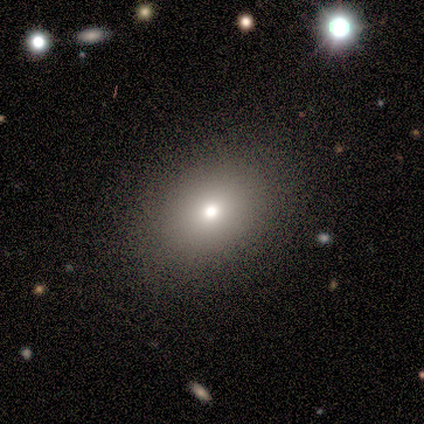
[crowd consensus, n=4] smooth_or_featured: smooth (p=0.50) [tied with: star or artifact p=0.50]
how_rounded: in between (p=1.00)
merging: none (p=1.00)